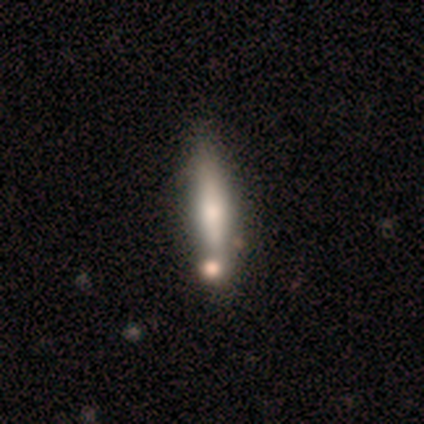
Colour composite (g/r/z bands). It shows a smooth galaxy with no disk features (60%) that is cigar-shaped (67%). Merging: none (100%).